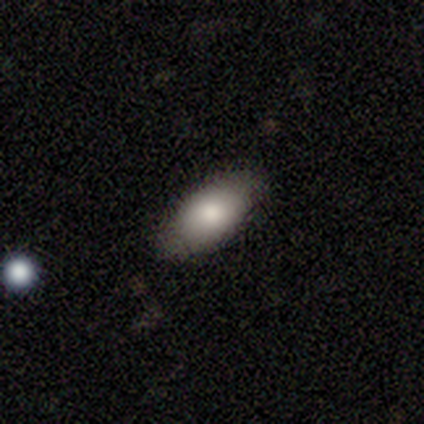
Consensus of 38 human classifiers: Overall: smooth (84%). How rounded: in between (84%). Merging: none (82%).